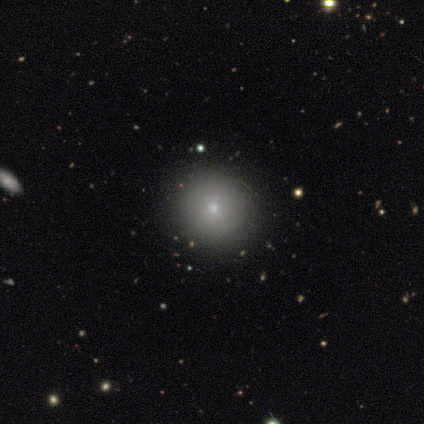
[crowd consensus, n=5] Smooth or featured: smooth — 60% (star or artifact — 40%)
How rounded: round — 100%
Merging: none — 100%